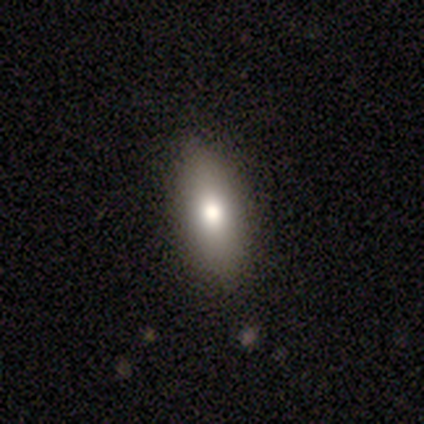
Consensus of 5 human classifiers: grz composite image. It shows a smooth galaxy with no disk features (100%) that is in between round and cigar-shaped (100%). Merging: none (100%).